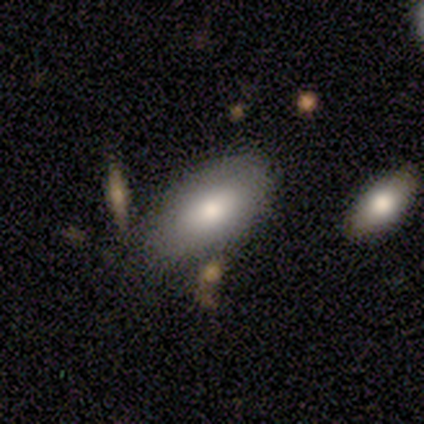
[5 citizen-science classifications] smooth_or_featured: smooth (p=0.60) [alt: featured or disk p=0.20]
how_rounded: in between (p=0.67) [alt: round p=0.33]
merging: minor disturbance (p=0.50) [alt: none p=0.25]